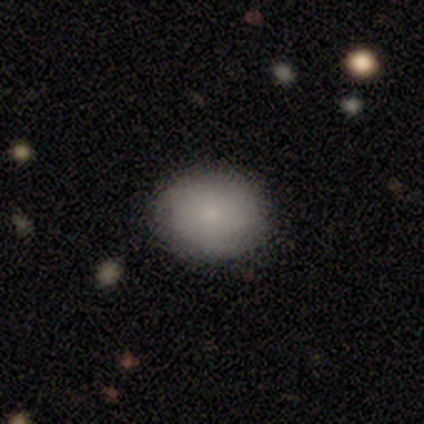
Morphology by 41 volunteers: A smooth galaxy with no disk features (80%) that is round (67%). Merging: none (84%).